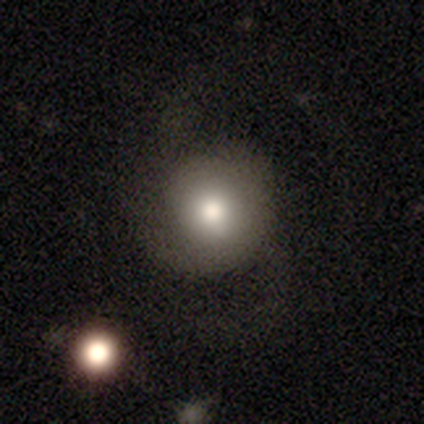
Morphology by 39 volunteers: smooth 62%, featured or disk 33%, star or artifact 5%. Down the decision tree: how rounded — round (92%); merging — none (30%).